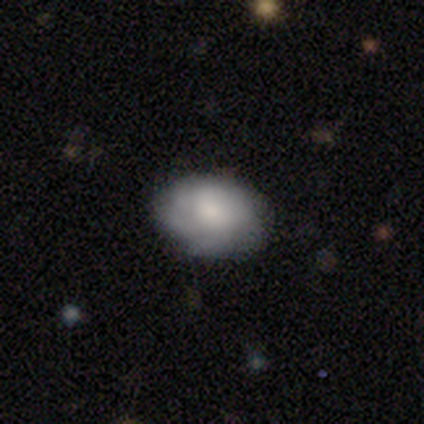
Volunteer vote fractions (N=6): A smooth galaxy with no disk features (50%, tied with featured or disk) that is in between round and cigar-shaped (100%). Merging: none (67%).